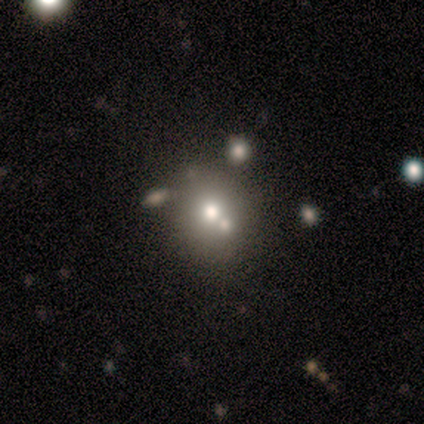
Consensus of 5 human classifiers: A smooth galaxy with no disk features (80%) that is round (100%).

Vote fractions:
- Smooth or featured? smooth: 80% / featured or disk: 20% / star or artifact: 0%
- How rounded? round: 100% / in between: 0% / cigar-shaped: 0%
- Merging? none: 80% / major disturbance: 20% / minor disturbance: 0% / merger: 0%